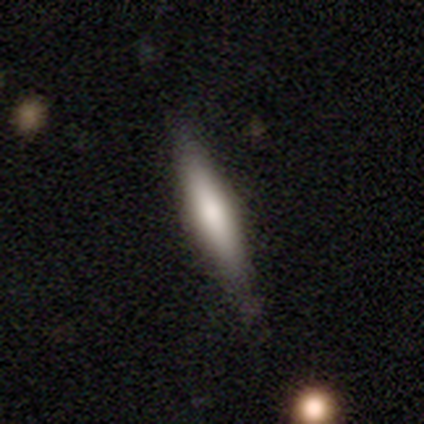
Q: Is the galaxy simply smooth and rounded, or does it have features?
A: smooth — 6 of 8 (75%).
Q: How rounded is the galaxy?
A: cigar-shaped — 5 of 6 (83%).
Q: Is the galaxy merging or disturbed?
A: none — 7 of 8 (88%).